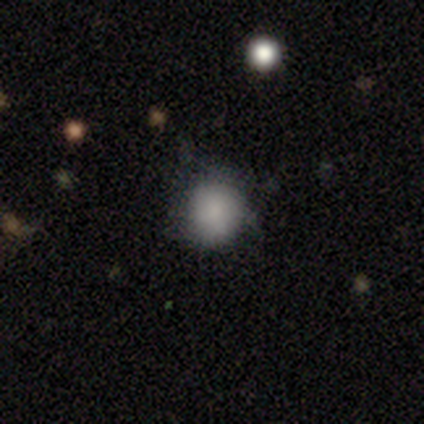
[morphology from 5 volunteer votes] A star or artifact, not a galaxy (60%).

Vote fractions:
- Smooth or featured? star or artifact: 60% / smooth: 40% / featured or disk: 0%